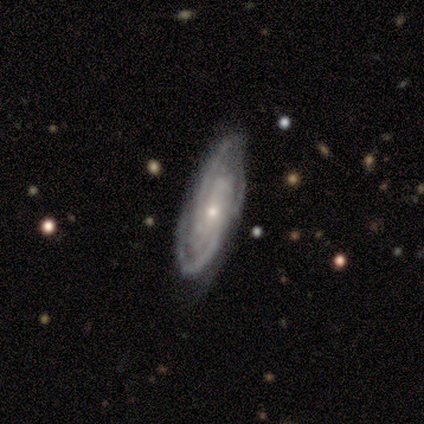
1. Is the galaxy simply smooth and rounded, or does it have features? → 86% featured or disk, 14% smooth, 0% star or artifact.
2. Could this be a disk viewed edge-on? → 83% no, 17% yes.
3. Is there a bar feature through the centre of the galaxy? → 100% no, 0% strong, 0% weak.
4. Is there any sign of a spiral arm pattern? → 80% yes, 20% no.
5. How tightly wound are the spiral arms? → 50% tight (tied), 50% medium (tied), 0% loose.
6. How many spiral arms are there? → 50% 2, 25% 3, 25% can't tell, 0% 1, 0% 4, 0% more than 4.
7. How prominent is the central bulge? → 80% small, 20% moderate, 0% dominant, 0% large, 0% none.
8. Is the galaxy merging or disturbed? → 57% none, 43% minor disturbance, 0% major disturbance, 0% merger.